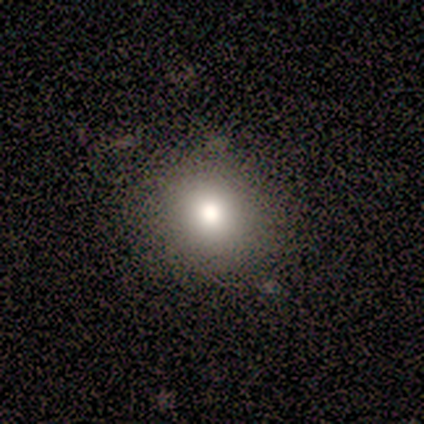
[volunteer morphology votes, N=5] type=smooth (60%); roundness=round (100%); merging=none (75%).